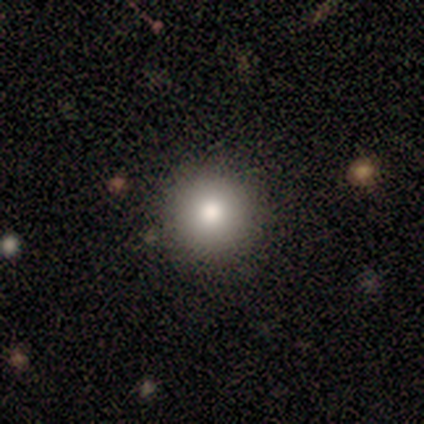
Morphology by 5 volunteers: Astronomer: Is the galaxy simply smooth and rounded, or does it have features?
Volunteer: smooth — 80%.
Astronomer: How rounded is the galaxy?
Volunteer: round — 100%.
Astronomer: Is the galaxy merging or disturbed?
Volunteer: none — 75%.